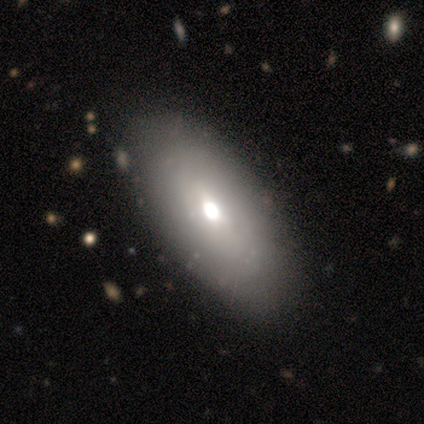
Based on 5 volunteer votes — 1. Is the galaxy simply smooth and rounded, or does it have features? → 80% smooth, 20% featured or disk, 0% star or artifact.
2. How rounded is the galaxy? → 100% in between, 0% round, 0% cigar-shaped.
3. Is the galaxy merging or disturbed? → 100% none, 0% minor disturbance, 0% major disturbance, 0% merger.